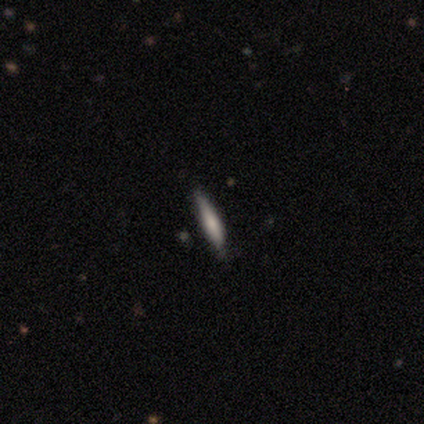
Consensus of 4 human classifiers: Q: Smooth or featured?
A: smooth (75%); runner-up: featured or disk (25%)
Q: How rounded?
A: cigar-shaped (67%); runner-up: in between (33%)
Q: Merging?
A: none (100%)